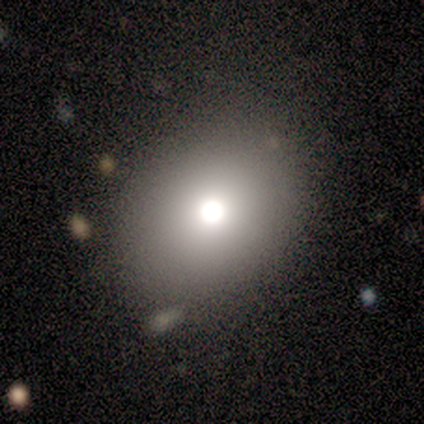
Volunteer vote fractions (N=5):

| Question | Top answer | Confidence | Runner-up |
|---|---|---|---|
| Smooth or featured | smooth | 60% | star or artifact (40%) |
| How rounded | in between | 67% | round (33%) |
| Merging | none | 67% | minor disturbance (33%) |